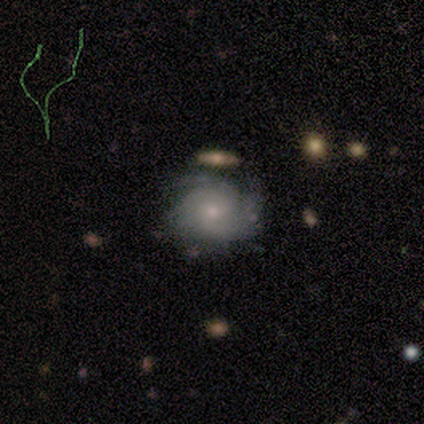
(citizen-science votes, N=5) This is likely a featured or disk galaxy (60%). It is clearly not viewed edge-on (100%). Bar: clearly no (100%). Spiral arm pattern: clearly yes (100%). Spiral arm count: marginally 2 (33%, tied with 3 and can't tell). Spiral winding: clearly tight (100%). Central bulge: clearly moderate (100%). Merging: likely none (75%).